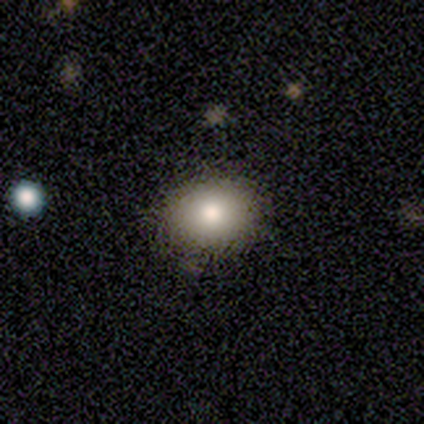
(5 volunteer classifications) smooth_or_featured: smooth (p=0.60) [alt: featured or disk p=0.20]
how_rounded: round (p=0.67) [alt: in between p=0.33]
merging: none (p=0.75) [alt: minor disturbance p=0.25]